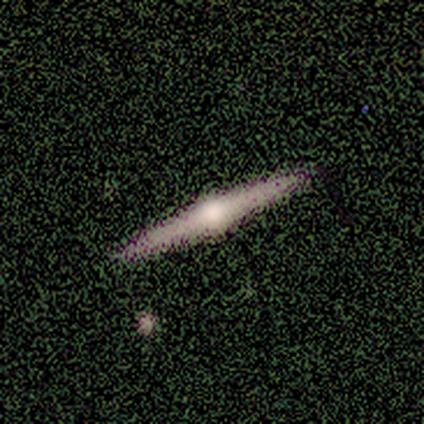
Q: Smooth or featured?
A: featured or disk (100%)
Q: Edge-on disk?
A: yes (100%)
Q: Edge-on bulge?
A: rounded (80%); runner-up: none (20%)
Q: Merging?
A: none (60%); runner-up: minor disturbance (40%)